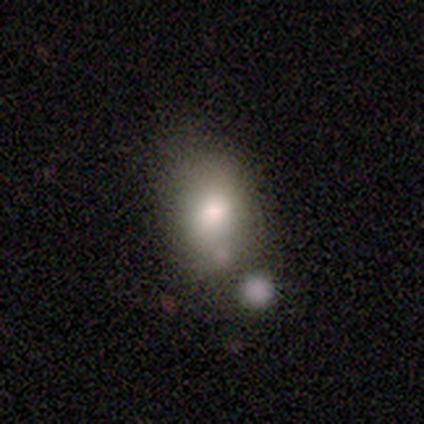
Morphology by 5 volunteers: Volunteers were most divided on "smooth or featured": smooth: 60%, featured or disk: 40%, star or artifact: 0%. More confident: how rounded — in between (67%); merging — none (60%).